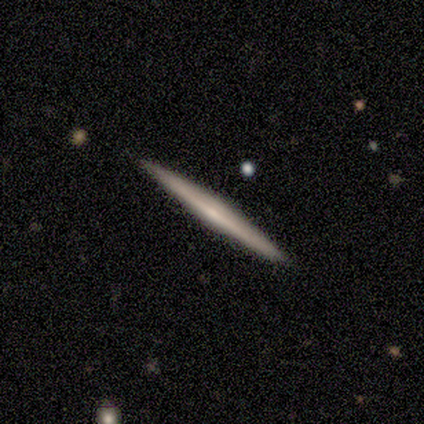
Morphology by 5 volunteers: Volunteers were most divided on "smooth or featured": featured or disk: 60%, smooth: 20%, star or artifact: 20%. More confident: edge-on disk — yes (100%); edge-on bulge — rounded (100%); merging — none (100%).